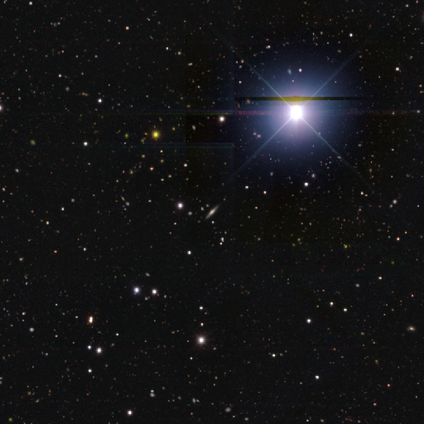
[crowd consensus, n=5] Overall: star or artifact (80%).